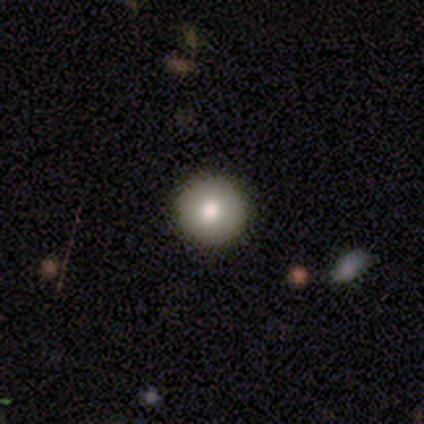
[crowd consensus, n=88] This is likely a smooth galaxy (75%). How rounded: clearly round (100%). Merging: clearly none (96%).